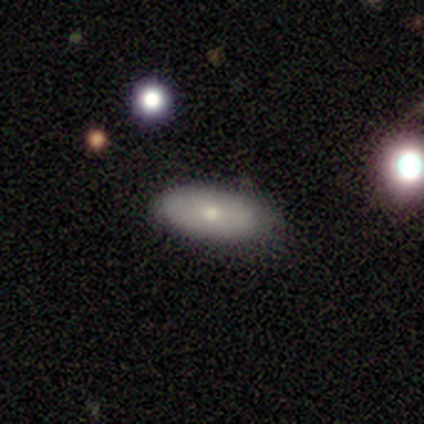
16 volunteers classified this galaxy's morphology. This appears to be a smooth galaxy with no disk features (75%) that is in between round and cigar-shaped (67%). Merging: none (73%).